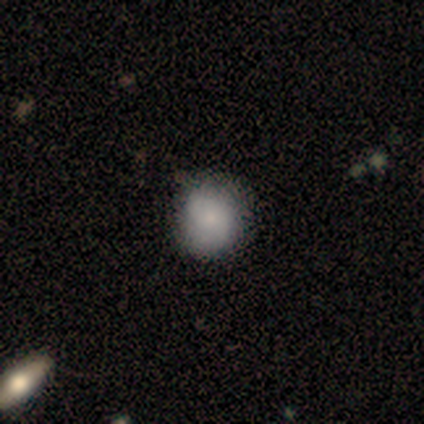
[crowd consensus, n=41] Morphology: type=smooth (68%); roundness=round (82%); merging=none (55%).